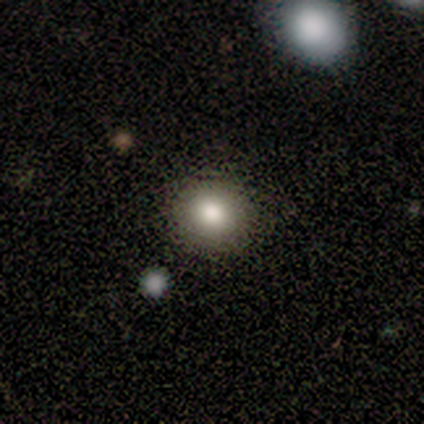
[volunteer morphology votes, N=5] smooth 80%, featured or disk 20%, star or artifact 0%. Down the decision tree: how rounded — round (100%); merging — none (100%).